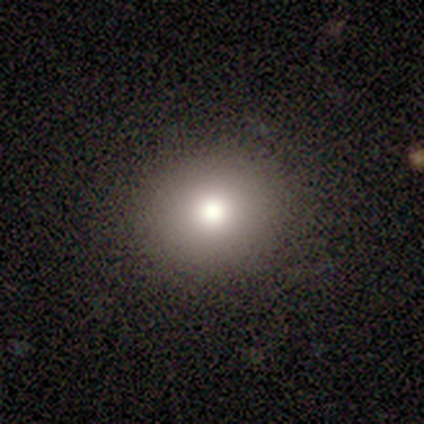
smooth-or-featured: smooth: 100% | featured or disk: 0% | star or artifact: 0%
  how-rounded: round: 60% | in between: 40% | cigar-shaped: 0%
  merging: none: 80% | minor disturbance: 20% | major disturbance: 0% | merger: 0%